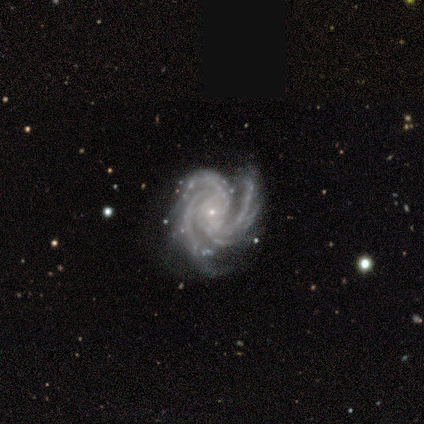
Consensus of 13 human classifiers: Volunteers were most divided on "bar": no: 62%, weak: 23%, strong: 15%. More confident: smooth or featured — featured or disk (100%); edge-on disk — no (100%); spiral arms — yes (100%); bulge size — small (92%); spiral winding — tight (85%); merging — none (85%); spiral arm count — 3 (69%).